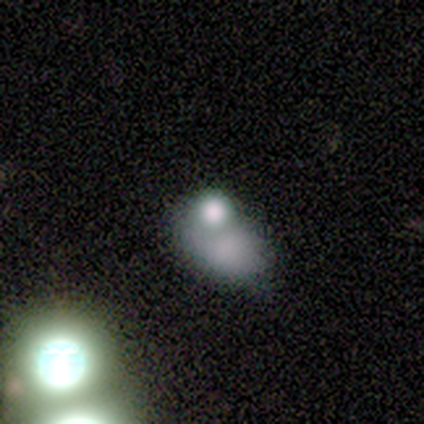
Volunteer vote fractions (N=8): A smooth galaxy with no disk features (50%) that is in between round and cigar-shaped (75%). Merging: merger (60%).